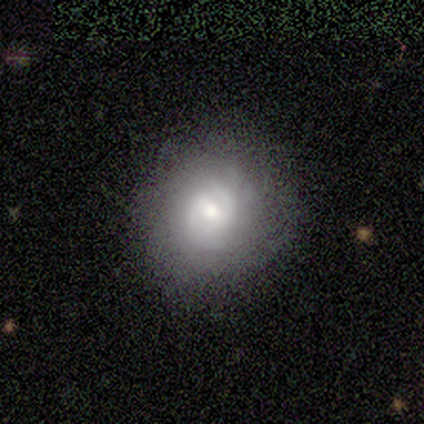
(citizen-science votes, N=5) Smooth or featured? featured or disk (60%)
Edge-on disk? no (100%)
Bar? strong (33%, tied with weak and no)
Spiral arms? no (67%)
Bulge size? moderate (100%)
Merging? none (75%)